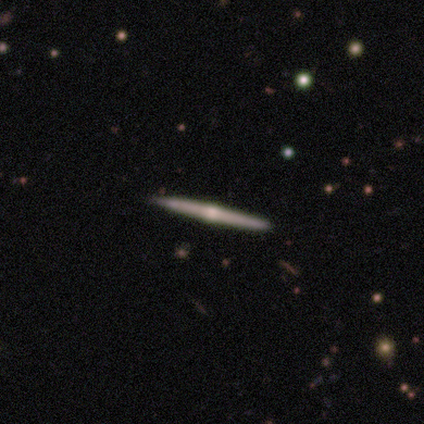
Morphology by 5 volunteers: This appears to be a featured or disk galaxy (100%) viewed edge-on (100%) with a rounded central bulge (100%). Merging: none (100%).